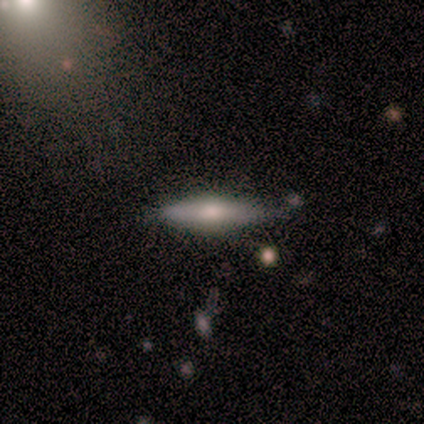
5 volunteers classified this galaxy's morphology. featured or disk 60%, smooth 40%, star or artifact 0%. Down the decision tree: edge-on disk — yes (100%); edge-on bulge — rounded (100%); merging — none (80%).